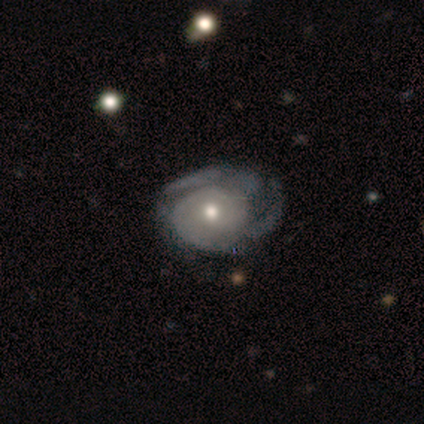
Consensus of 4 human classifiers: smooth-or-featured: featured or disk: 100% | smooth: 0% | star or artifact: 0%
  disk-edge-on: no: 100% | yes: 0%
    bar: no: 100% | strong: 0% | weak: 0%
    has-spiral-arms: yes: 75% | no: 25%
      spiral-winding: tight: 33% (tied) | medium: 33% (tied) | loose: 33% (tied)
      spiral-arm-count: can't tell: 67% | 3: 33% | 1: 0% | 2: 0% | 4: 0% | more than 4: 0%
    bulge-size: moderate: 75% | large: 25% | dominant: 0% | small: 0% | none: 0%
  merging: none: 50% (tied) | major disturbance: 50% (tied) | minor disturbance: 0% | merger: 0%